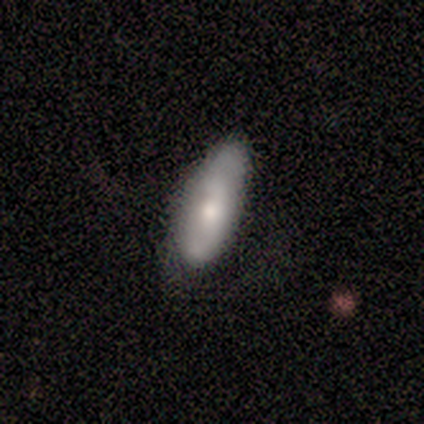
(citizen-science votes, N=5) Q: Smooth or featured?
A: smooth (80%); runner-up: featured or disk (20%)
Q: How rounded?
A: in between (75%); runner-up: cigar-shaped (25%)
Q: Merging?
A: none (80%); runner-up: minor disturbance (20%)